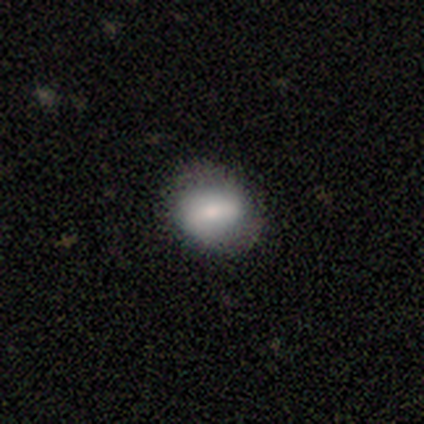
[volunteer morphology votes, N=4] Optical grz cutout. It shows a featured or disk galaxy (50%) with a strong bar (50%, tied with weak), 2 (100%) medium (100%) spiral arms (50%, tied with no) and a moderate central bulge (100%). Merging: none (67%).